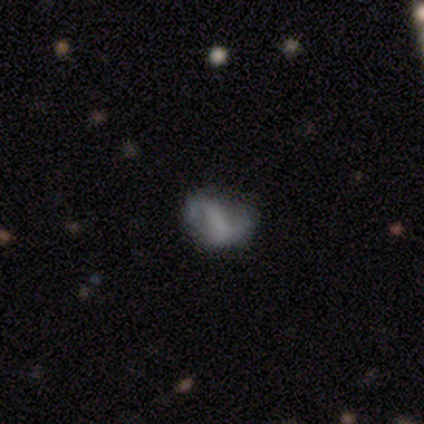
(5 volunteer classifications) Smooth or featured: smooth — 40% (tied with featured or disk — 40%)
How rounded: in between — 100%
Merging: none — 100%